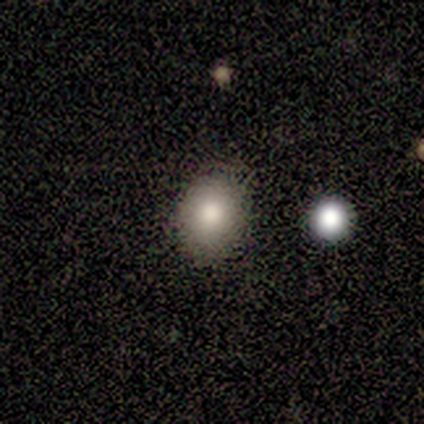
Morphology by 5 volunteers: smooth_or_featured: smooth (p=0.60) [alt: featured or disk p=0.20]
how_rounded: in between (p=0.67) [alt: round p=0.33]
merging: none (p=0.50) [alt: minor disturbance p=0.25]